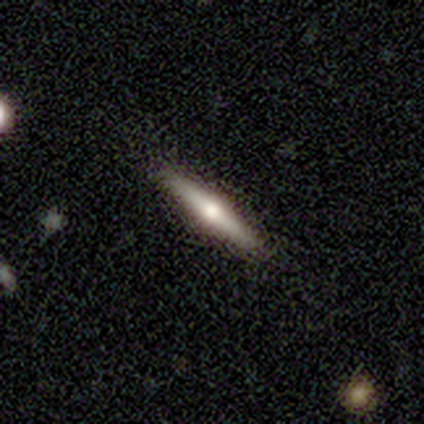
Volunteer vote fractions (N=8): Smooth or featured: featured or disk — 75% (smooth — 12%)
Edge-on disk: yes — 100%
Edge-on bulge: rounded — 100%
Merging: none — 100%